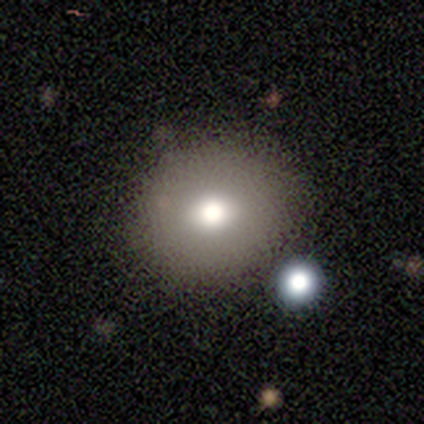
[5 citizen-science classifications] A smooth galaxy with no disk features (100%) that is round (80%).

Vote fractions:
- Smooth or featured? smooth: 100% / featured or disk: 0% / star or artifact: 0%
- How rounded? round: 80% / in between: 20% / cigar-shaped: 0%
- Merging? none: 80% / major disturbance: 20% / minor disturbance: 0% / merger: 0%